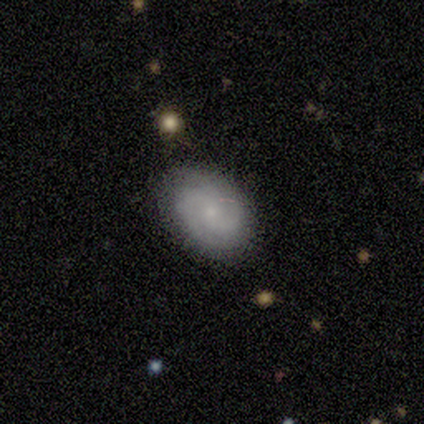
smooth_or_featured: smooth (p=0.40) [tied with: featured or disk p=0.40]
how_rounded: in between (p=1.00)
merging: none (p=1.00)